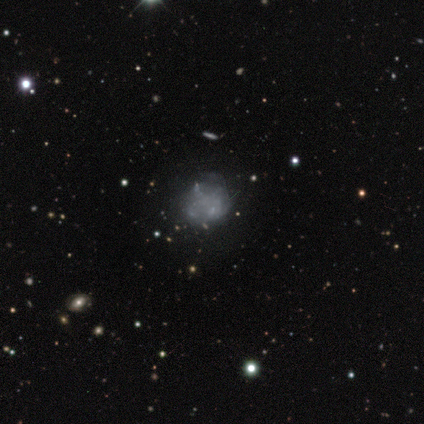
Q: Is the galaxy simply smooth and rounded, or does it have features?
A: featured or disk — 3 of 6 (50%).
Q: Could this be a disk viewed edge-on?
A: no — 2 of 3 (67%).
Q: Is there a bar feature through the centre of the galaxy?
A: no — 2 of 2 (100%).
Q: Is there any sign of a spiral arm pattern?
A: no — 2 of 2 (100%).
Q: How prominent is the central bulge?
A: none — 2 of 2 (100%).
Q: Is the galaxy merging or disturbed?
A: none — 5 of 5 (100%).